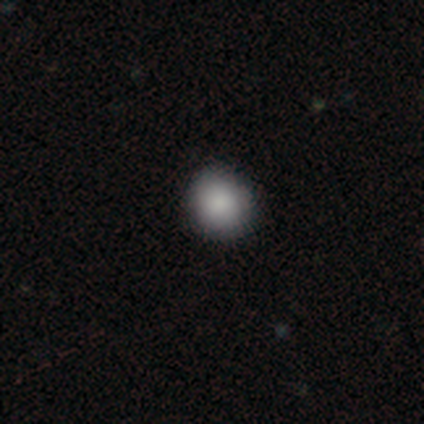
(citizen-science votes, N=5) Smooth or featured? 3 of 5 (60%) said smooth. How rounded? 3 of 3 (100%) said round. Merging? 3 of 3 (100%) said none.